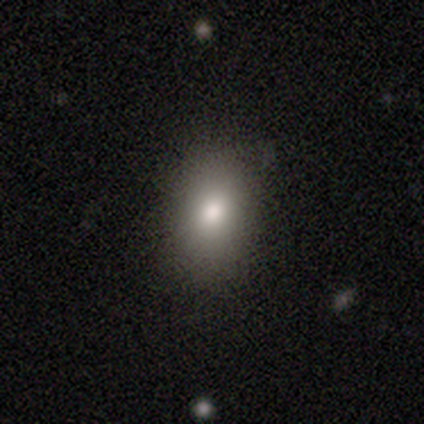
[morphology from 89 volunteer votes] Q: Smooth or featured?
A: smooth (80%); runner-up: featured or disk (11%)
Q: How rounded?
A: in between (70%); runner-up: round (27%)
Q: Merging?
A: none (75%); runner-up: minor disturbance (19%)